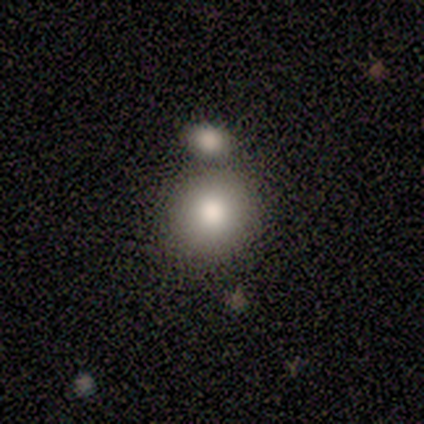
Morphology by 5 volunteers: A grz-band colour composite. It shows a smooth galaxy with no disk features (80%) that is round (100%). Merging: minor disturbance (50%).